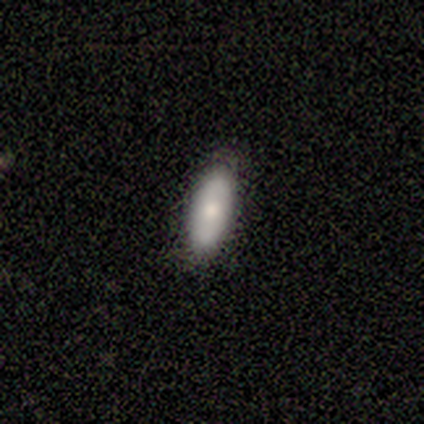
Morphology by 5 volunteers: Volunteers were most divided on "merging": none: 60%, minor disturbance: 40%, major disturbance: 0%, merger: 0%. More confident: smooth or featured — smooth (100%); how rounded — in between (80%).